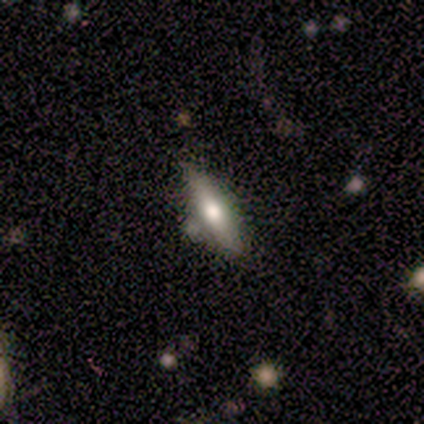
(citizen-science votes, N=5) Smooth or featured? featured or disk (60%)
Edge-on disk? yes (100%)
Edge-on bulge? rounded (100%)
Merging? minor disturbance (60%)